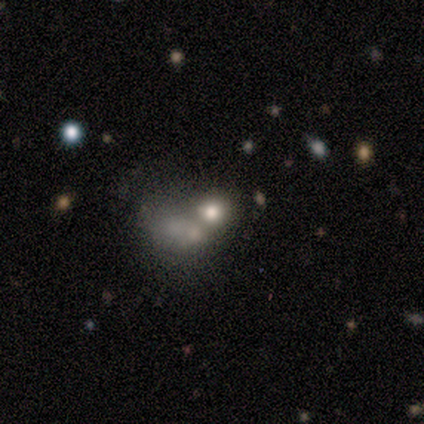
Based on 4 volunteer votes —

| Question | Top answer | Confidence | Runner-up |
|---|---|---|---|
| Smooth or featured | smooth | 50% | featured or disk (25%) |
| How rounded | round | 50% | tied: in between (50%) |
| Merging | merger | 67% | none (33%) |